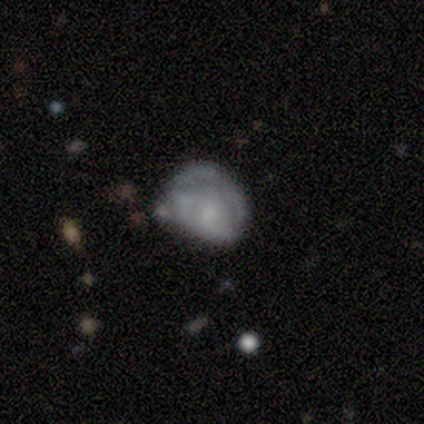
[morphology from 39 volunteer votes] Volunteers were most divided on "merging": minor disturbance: 39%, none: 32%, major disturbance: 18%, merger: 11%. More confident: edge-on disk — no (95%); bar — no (90%); spiral arms — no (57%); bulge size — small (57%); smooth or featured — featured or disk (56%).